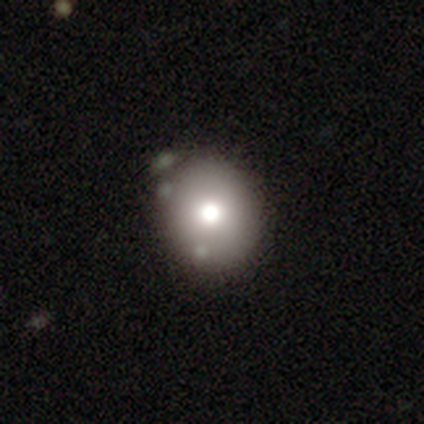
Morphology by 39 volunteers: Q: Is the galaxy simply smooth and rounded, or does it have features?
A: smooth — 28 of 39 (72%).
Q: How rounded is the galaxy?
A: round — 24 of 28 (86%).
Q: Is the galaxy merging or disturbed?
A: none — 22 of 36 (61%).